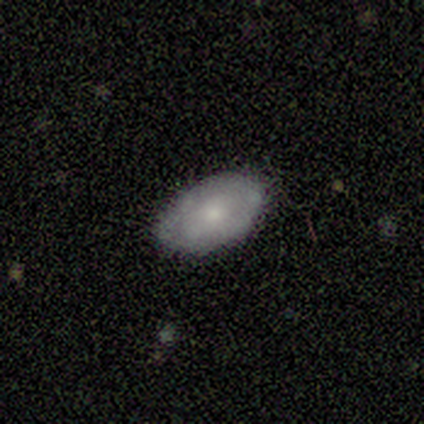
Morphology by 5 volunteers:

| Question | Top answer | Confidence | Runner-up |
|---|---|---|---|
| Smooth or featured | featured or disk | 60% | smooth (40%) |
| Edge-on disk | no | 100% | — |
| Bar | no | 100% | — |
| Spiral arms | no | 67% | yes (33%) |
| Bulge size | small | 100% | — |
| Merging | none | 80% | minor disturbance (20%) |